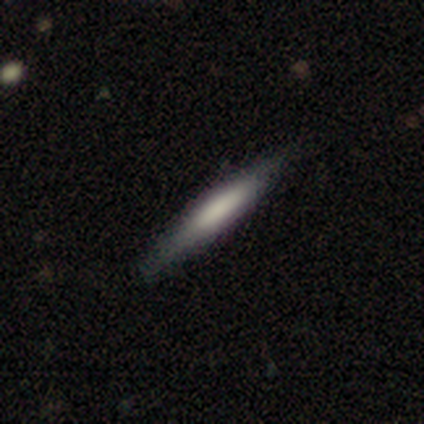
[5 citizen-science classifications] Smooth or featured? featured or disk (60%)
Edge-on disk? yes (100%)
Edge-on bulge? boxy (67%)
Merging? none (50%)